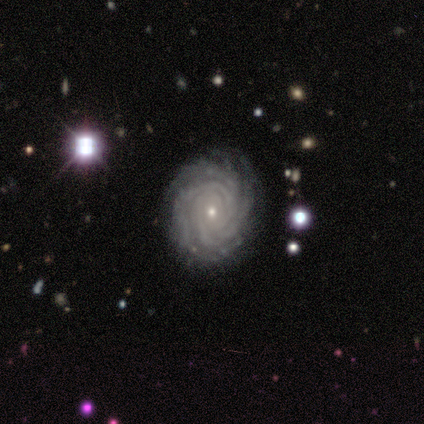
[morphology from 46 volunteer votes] A featured or disk galaxy (98%) with no bar (86%), more than 4 (39%) tight (98%) spiral arms (98%) and a small central bulge (90%). Merging: none (91%).